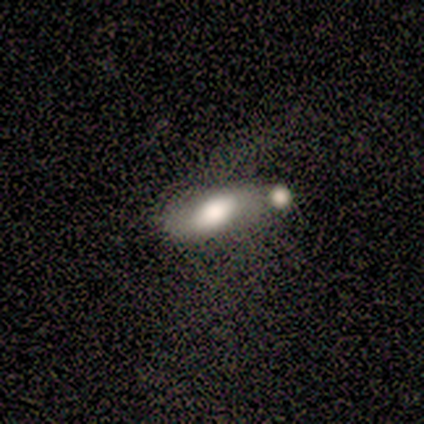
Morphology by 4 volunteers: Volunteers were most divided on "smooth or featured" (2-way tie): smooth: 50%, featured or disk: 50%, star or artifact: 0%. More confident: how rounded — in between (100%); merging — none (50%).